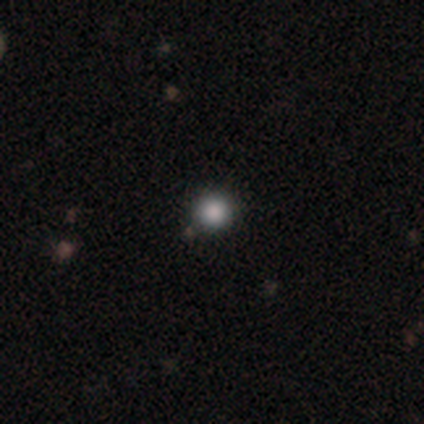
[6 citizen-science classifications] Smooth or featured: smooth — 100%
How rounded: round — 100%
Merging: none — 100%